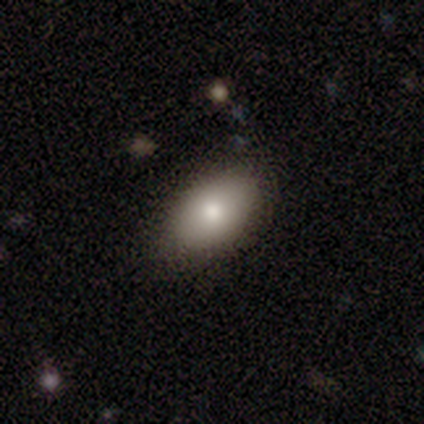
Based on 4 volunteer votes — Smooth or featured?
  - smooth: 75% *
  - featured or disk: 25%
  - star or artifact: 0%
How rounded?
  - in between: 100% *
  - round: 0%
  - cigar-shaped: 0%
Merging?
  - none: 100% *
  - minor disturbance: 0%
  - major disturbance: 0%
  - merger: 0%